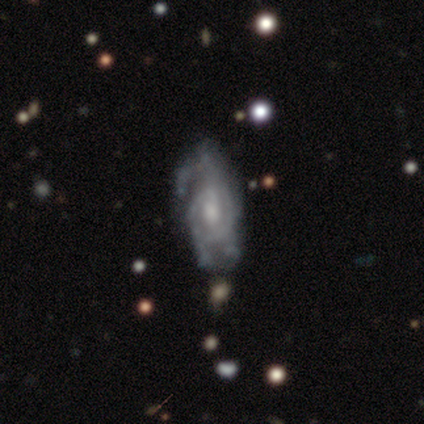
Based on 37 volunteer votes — This is clearly a featured or disk galaxy (86%). It is clearly not viewed edge-on (91%). Bar: possibly no (48%). Spiral arm pattern: likely yes (79%). Spiral arm count: marginally can't tell (43%). Spiral winding: marginally medium (43%). Central bulge: likely moderate (62%). Merging: possibly major disturbance (46%).